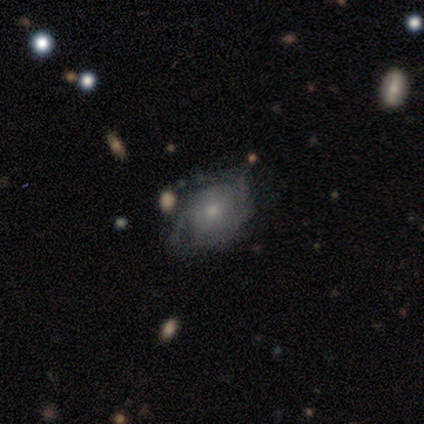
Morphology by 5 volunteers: Smooth or featured? featured or disk (100%)
Edge-on disk? no (100%)
Bar? no (80%)
Spiral arms? yes (80%)
Spiral winding? tight (50%)
Spiral arm count? 2 (50%, tied with can't tell)
Bulge size? small (80%)
Merging? minor disturbance (60%)